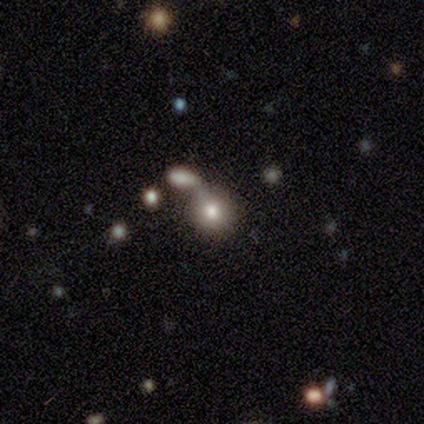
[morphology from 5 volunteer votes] Volunteers were most divided on "merging": merger: 60%, none: 20%, minor disturbance: 20%, major disturbance: 0%. More confident: smooth or featured — smooth (100%); how rounded — round (80%).